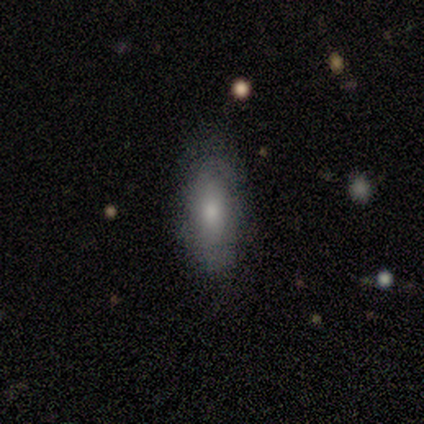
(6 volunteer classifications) Morphology: type=smooth (83%); roundness=in between (60%); merging=none (50%, tied with minor disturbance).